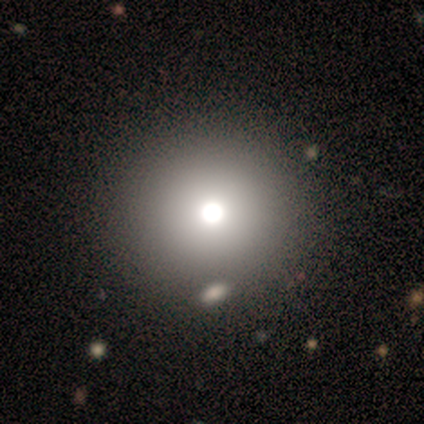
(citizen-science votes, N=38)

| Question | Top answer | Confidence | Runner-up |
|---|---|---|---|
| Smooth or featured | smooth | 71% | star or artifact (16%) |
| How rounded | round | 100% | — |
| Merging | none | 72% | merger (9%) |